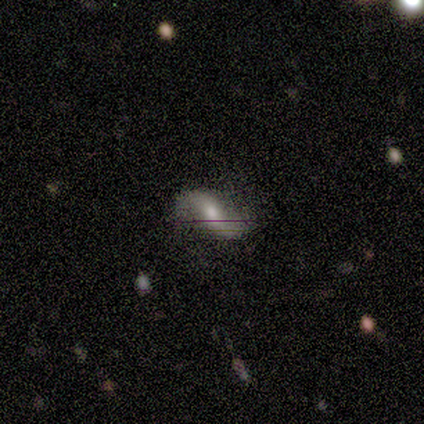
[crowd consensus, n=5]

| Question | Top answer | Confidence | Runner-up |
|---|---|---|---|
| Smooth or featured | featured or disk | 80% | smooth (20%) |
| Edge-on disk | no | 100% | — |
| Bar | strong | 50% | tied: weak (50%) |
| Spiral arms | yes | 100% | — |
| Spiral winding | loose | 75% | medium (25%) |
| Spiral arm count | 2 | 100% | — |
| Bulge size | moderate | 100% | — |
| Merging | none | 80% | minor disturbance (20%) |